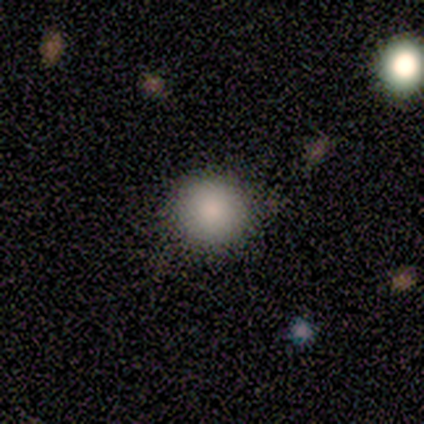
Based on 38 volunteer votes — Q: Smooth or featured?
A: smooth (95%); runner-up: featured or disk (5%)
Q: How rounded?
A: round (97%); runner-up: in between (3%)
Q: Merging?
A: none (50%); runner-up: minor disturbance (11%)